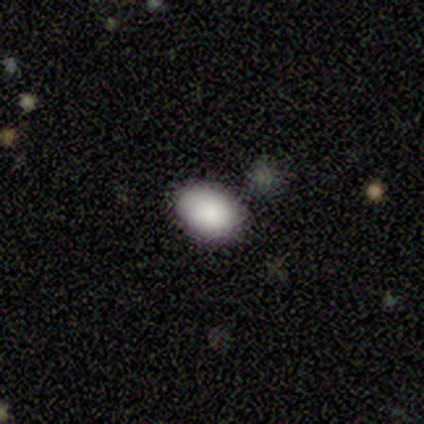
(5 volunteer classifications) A smooth galaxy with no disk features (80%) that is in between round and cigar-shaped (100%).

Vote fractions:
- Smooth or featured? smooth: 80% / featured or disk: 20% / star or artifact: 0%
- How rounded? in between: 100% / round: 0% / cigar-shaped: 0%
- Merging? none: 80% / minor disturbance: 20% / major disturbance: 0% / merger: 0%